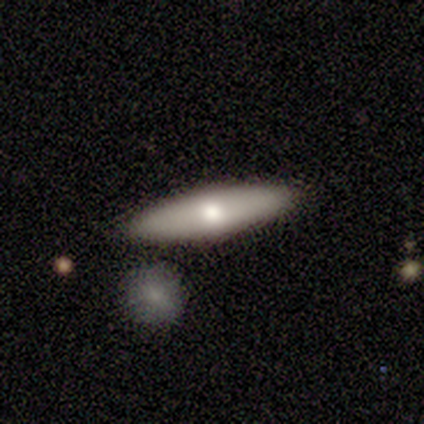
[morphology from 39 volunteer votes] Overall: smooth (49%; featured or disk 46%). How rounded: cigar-shaped (53%; in between 47%). Merging: none (86%).